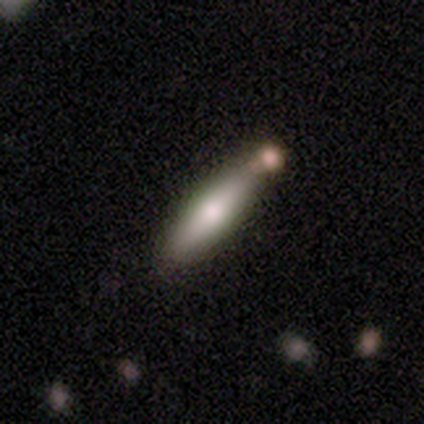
Smooth or featured? smooth (63%)
How rounded? cigar-shaped (79%)
Merging? none (60%)